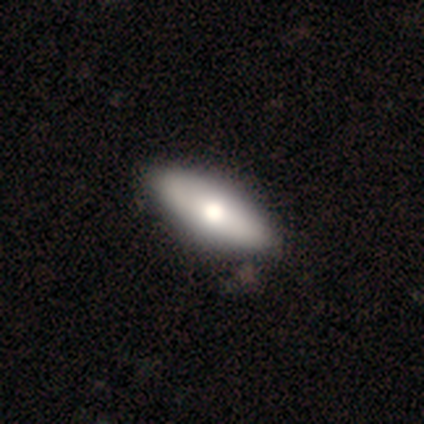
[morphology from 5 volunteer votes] Q: Smooth or featured?
A: smooth (40%); tied with: star or artifact (40%)
Q: How rounded?
A: in between (100%)
Q: Merging?
A: none (100%)